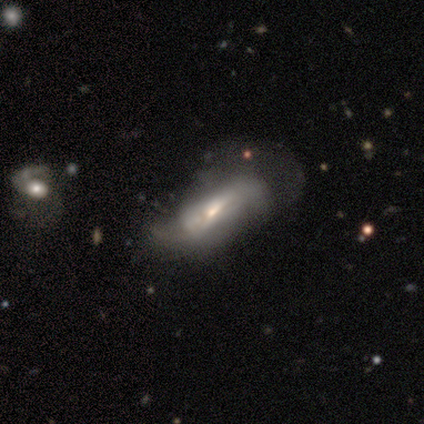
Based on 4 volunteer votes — smooth-or-featured: featured or disk: 75% | smooth: 25% | star or artifact: 0%
  disk-edge-on: no: 100% | yes: 0%
    bar: strong: 33% (tied) | weak: 33% (tied) | no: 33% (tied)
    has-spiral-arms: yes: 100% | no: 0%
      spiral-winding: loose: 67% | medium: 33% | tight: 0%
      spiral-arm-count: 2: 67% | can't tell: 33% | 1: 0% | 3: 0% | 4: 0% | more than 4: 0%
    bulge-size: moderate: 67% | small: 33% | dominant: 0% | large: 0% | none: 0%
  merging: merger: 50% | minor disturbance: 25% | major disturbance: 25% | none: 0%